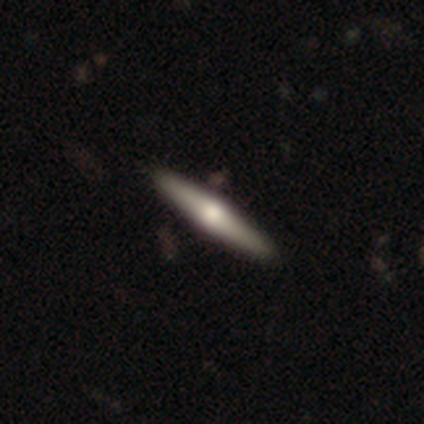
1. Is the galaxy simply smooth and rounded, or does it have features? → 50% smooth (tied), 50% featured or disk (tied), 0% star or artifact.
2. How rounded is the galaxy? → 100% cigar-shaped, 0% round, 0% in between.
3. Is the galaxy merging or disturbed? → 100% none, 0% minor disturbance, 0% major disturbance, 0% merger.